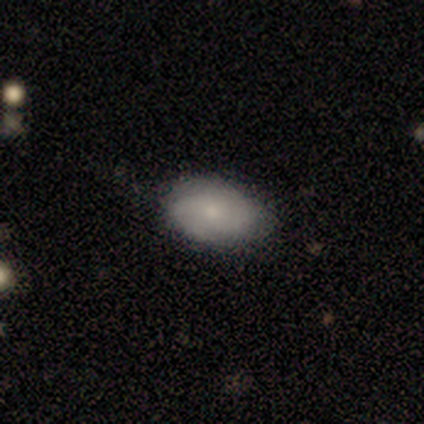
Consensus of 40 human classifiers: A smooth galaxy with no disk features (65%) that is in between round and cigar-shaped (100%).

Vote fractions:
- Smooth or featured? smooth: 65% / featured or disk: 30% / star or artifact: 5%
- How rounded? in between: 100% / round: 0% / cigar-shaped: 0%
- Merging? none: 79% / minor disturbance: 18% / major disturbance: 3% / merger: 0%